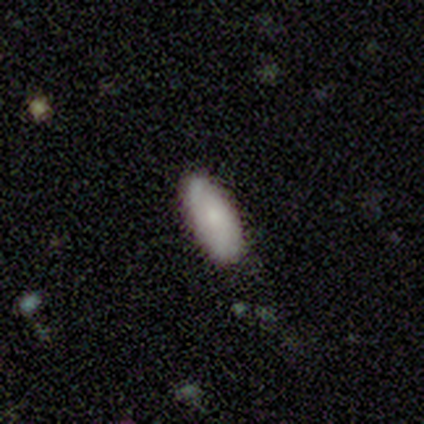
Overall: smooth (100%). How rounded: in between (80%). Merging: none (100%).